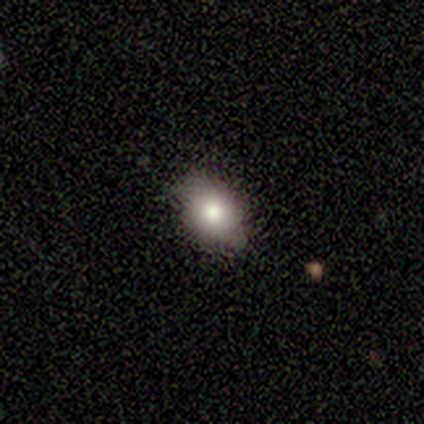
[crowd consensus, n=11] smooth_or_featured: smooth (p=0.91) [alt: star or artifact p=0.09]
how_rounded: in between (p=1.00)
merging: none (p=0.90) [alt: major disturbance p=0.10]